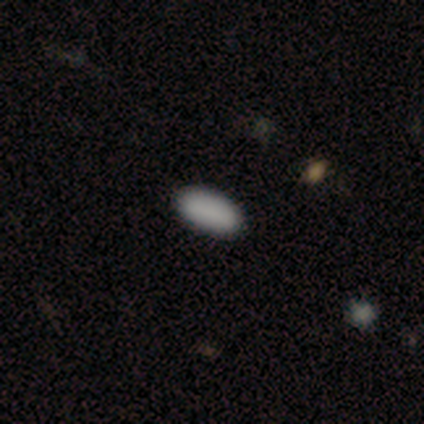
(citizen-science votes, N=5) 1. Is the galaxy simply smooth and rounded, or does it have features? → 60% smooth, 20% featured or disk, 20% star or artifact.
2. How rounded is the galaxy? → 100% in between, 0% round, 0% cigar-shaped.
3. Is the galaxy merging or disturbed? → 100% none, 0% minor disturbance, 0% major disturbance, 0% merger.